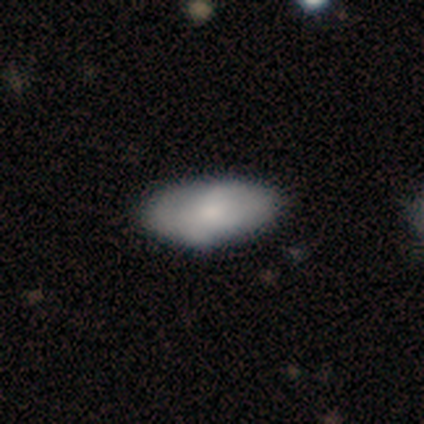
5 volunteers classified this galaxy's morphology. Smooth or featured: smooth — 80% (featured or disk — 20%)
How rounded: in between — 100%
Merging: minor disturbance — 60% (none — 40%)